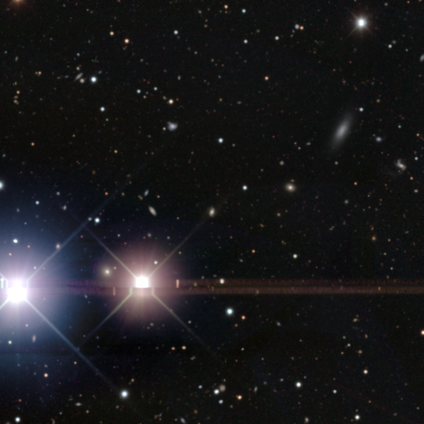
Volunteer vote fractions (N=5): Overall: star or artifact (100%).